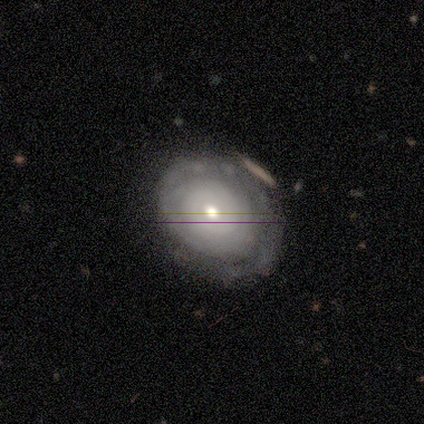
smooth_or_featured: featured or disk (p=0.50) [tied with: star or artifact p=0.50]
disk_edge_on: no (p=1.00)
bar: no (p=1.00)
has_spiral_arms: yes (p=1.00)
spiral_winding: tight (p=1.00)
spiral_arm_count: 2 (p=1.00)
bulge_size: moderate (p=0.50) [tied with: small p=0.50]
merging: none (p=0.50) [tied with: minor disturbance p=0.50]